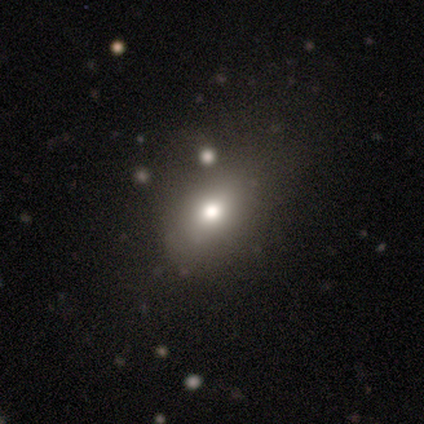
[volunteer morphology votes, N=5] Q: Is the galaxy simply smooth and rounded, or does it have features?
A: smooth — 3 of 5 (60%).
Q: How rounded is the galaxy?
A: in between — 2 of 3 (67%).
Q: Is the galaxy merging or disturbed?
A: none — 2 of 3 (67%).